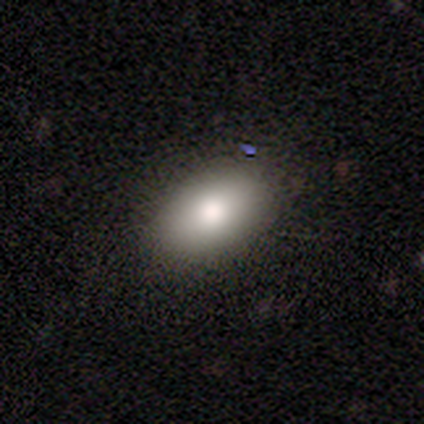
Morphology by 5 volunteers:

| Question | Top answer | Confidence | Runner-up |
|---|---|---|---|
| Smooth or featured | smooth | 100% | — |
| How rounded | in between | 100% | — |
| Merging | none | 100% | — |